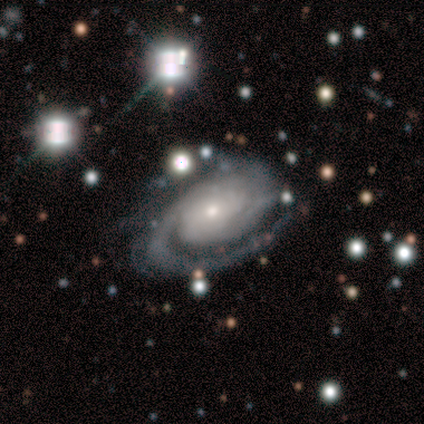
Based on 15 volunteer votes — Overall: featured or disk (93%). Edge-on disk: no (100%). Bar: no (64%). Spiral arms: yes (100%). Spiral arm count: 2 (79%). Spiral winding: tight (79%). Bulge size: small (64%; moderate 29%). Merging: none (43%; major disturbance 36%).